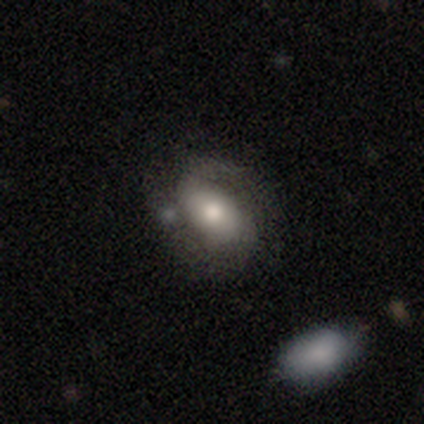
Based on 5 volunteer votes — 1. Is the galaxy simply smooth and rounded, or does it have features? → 80% featured or disk, 20% smooth, 0% star or artifact.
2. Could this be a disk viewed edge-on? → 100% no, 0% yes.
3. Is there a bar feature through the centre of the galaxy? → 50% no, 25% strong, 25% weak.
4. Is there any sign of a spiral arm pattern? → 75% yes, 25% no.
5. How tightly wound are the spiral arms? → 100% medium, 0% tight, 0% loose.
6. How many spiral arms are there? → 100% 2, 0% 1, 0% 3, 0% 4, 0% more than 4, 0% can't tell.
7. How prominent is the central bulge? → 50% moderate, 25% large, 25% small, 0% dominant, 0% none.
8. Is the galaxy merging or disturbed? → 60% none, 20% major disturbance, 20% merger, 0% minor disturbance.